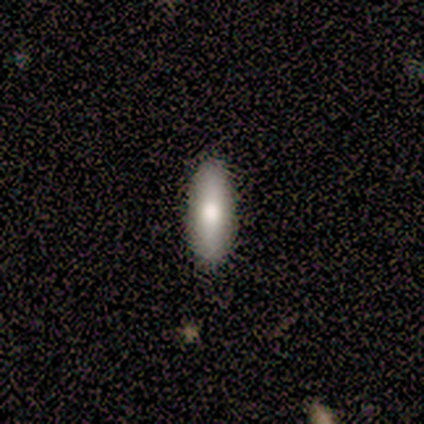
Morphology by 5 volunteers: Q: Smooth or featured?
A: smooth (80%); runner-up: featured or disk (20%)
Q: How rounded?
A: cigar-shaped (100%)
Q: Merging?
A: none (80%); runner-up: major disturbance (20%)